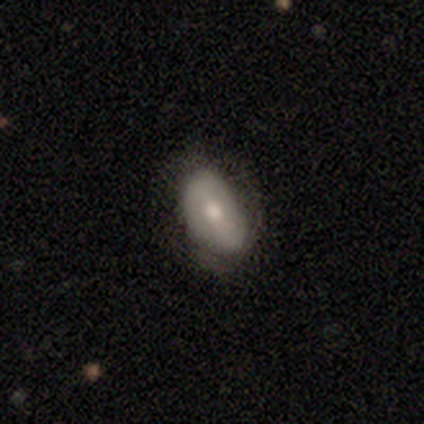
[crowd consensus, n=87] smooth-or-featured: smooth: 61% | featured or disk: 30% | star or artifact: 9%
  how-rounded: in between: 98% | round: 2% | cigar-shaped: 0%
  merging: none: 58% | minor disturbance: 32% | major disturbance: 9% | merger: 1%